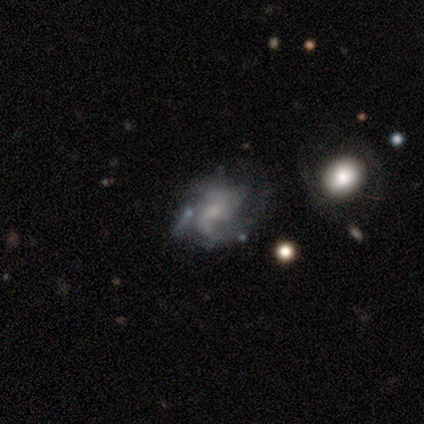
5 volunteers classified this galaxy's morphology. featured or disk 80%, star or artifact 20%, smooth 0%. Down the decision tree: edge-on disk — no (100%); bar — no (100%); spiral arms — yes (75%); spiral arm count — 2 (67%); spiral winding — tight (33%, tied with medium and loose); bulge size — small (75%); merging — none (50%, tied with major disturbance).